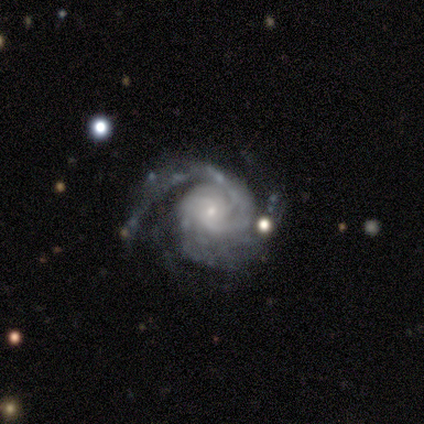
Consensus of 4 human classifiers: Volunteers were most divided on "spiral arm count" (3-way tie): 2: 33%, 3: 33%, more than 4: 33%, 1: 0%, 4: 0%, can't tell: 0%. More confident: edge-on disk — no (100%); bar — no (100%); spiral arms — yes (100%); bulge size — small (100%); smooth or featured — featured or disk (75%); spiral winding — tight (67%); merging — none (67%).